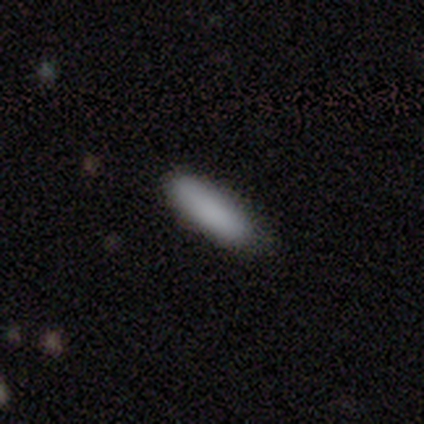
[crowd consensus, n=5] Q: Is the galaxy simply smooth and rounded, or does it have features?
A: smooth — 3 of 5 (60%).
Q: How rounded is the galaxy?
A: in between — 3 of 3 (100%).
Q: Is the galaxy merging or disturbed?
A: none — 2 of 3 (67%).